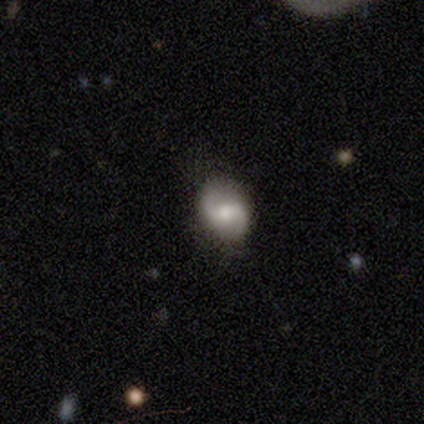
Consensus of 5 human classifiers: Overall: featured or disk (100%). Edge-on disk: no (100%). Bar: weak (40%, tied with no). Spiral arms: yes (100%). Spiral arm count: 2 (80%). Spiral winding: loose (60%; tight 40%). Bulge size: moderate (60%; large 20%). Merging: none (100%).